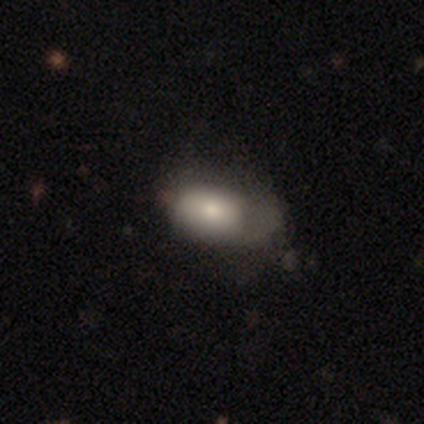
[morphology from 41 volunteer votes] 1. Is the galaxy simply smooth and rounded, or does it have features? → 76% smooth, 20% featured or disk, 5% star or artifact.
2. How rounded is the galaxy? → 100% in between, 0% round, 0% cigar-shaped.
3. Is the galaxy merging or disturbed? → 41% minor disturbance, 31% none, 28% major disturbance, 0% merger.